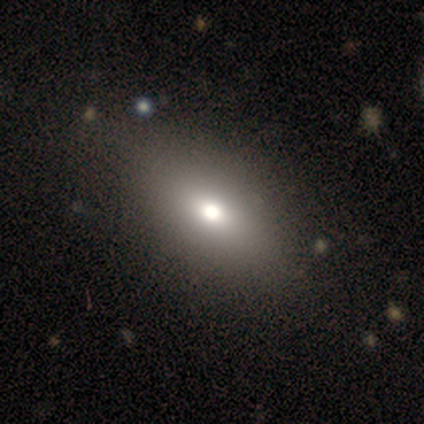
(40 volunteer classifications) Smooth or featured? smooth (70%)
How rounded? in between (89%)
Merging? none (71%)